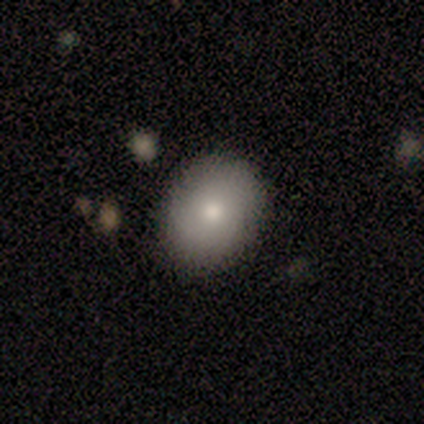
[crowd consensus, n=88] Overall: smooth (81%). How rounded: in between (62%; round 38%). Merging: none (86%).